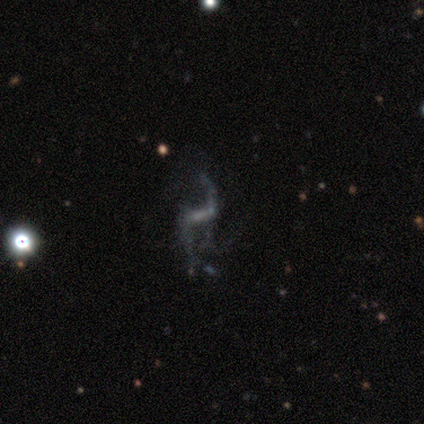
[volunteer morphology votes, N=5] Volunteers were most divided on "merging" (2-way tie): none: 40%, minor disturbance: 40%, major disturbance: 20%, merger: 0%. More confident: smooth or featured — featured or disk (100%); edge-on disk — no (100%); spiral arms — yes (100%); spiral winding — loose (100%); spiral arm count — 2 (80%); bar — weak (60%); bulge size — small (60%).